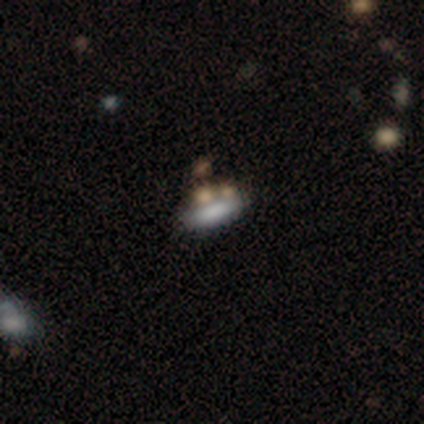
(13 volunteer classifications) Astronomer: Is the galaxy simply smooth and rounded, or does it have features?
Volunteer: smooth — 69%.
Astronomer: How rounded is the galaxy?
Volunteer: in between — 67%.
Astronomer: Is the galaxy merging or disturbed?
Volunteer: none — 45%, tied with merger at 45%.